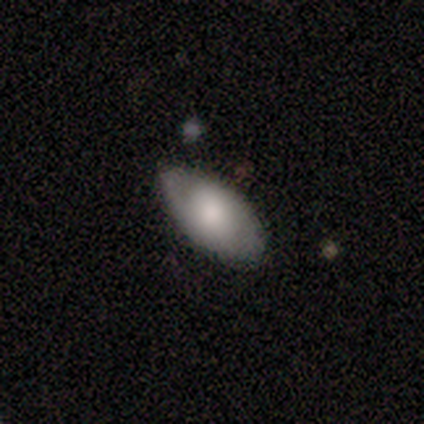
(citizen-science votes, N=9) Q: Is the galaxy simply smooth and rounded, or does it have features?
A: smooth — 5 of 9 (56%).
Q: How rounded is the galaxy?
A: in between — 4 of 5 (80%).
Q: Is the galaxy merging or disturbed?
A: none — 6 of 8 (75%).